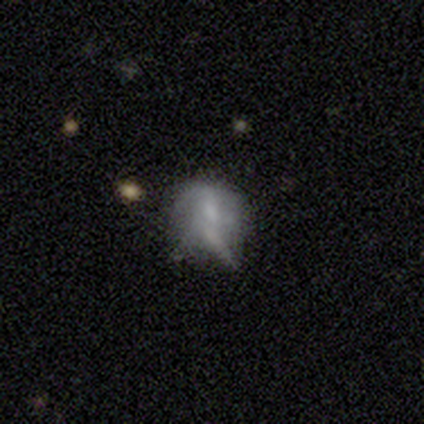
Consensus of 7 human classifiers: smooth_or_featured: smooth (p=0.57) [alt: featured or disk p=0.43]
how_rounded: round (p=0.75) [alt: in between p=0.25]
merging: minor disturbance (p=0.57) [alt: none p=0.14]